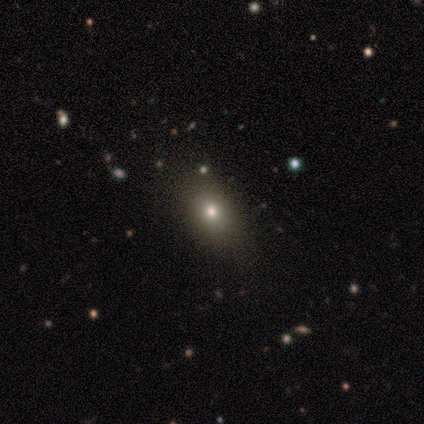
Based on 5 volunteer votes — featured or disk 60%, smooth 40%, star or artifact 0%. Down the decision tree: edge-on disk — no (100%); bar — no (100%); spiral arms — no (100%); bulge size — small (67%); merging — minor disturbance (60%).